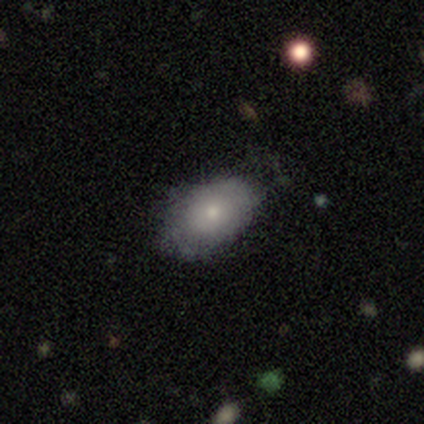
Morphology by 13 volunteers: Volunteers were most divided on "merging": none: 58%, minor disturbance: 33%, major disturbance: 8%, merger: 0%. More confident: how rounded — in between (88%); smooth or featured — smooth (62%).